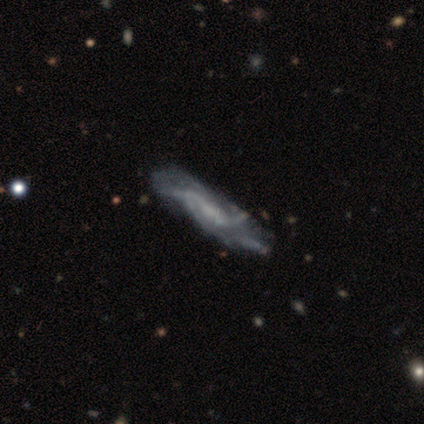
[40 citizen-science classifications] featured or disk 85%, smooth 8%, star or artifact 8%. Down the decision tree: edge-on disk — no (85%); bar — weak (45%, tied with no); spiral arms — yes (86%); spiral arm count — can't tell (48%); spiral winding — loose (44%); bulge size — none (55%); merging — none (54%).